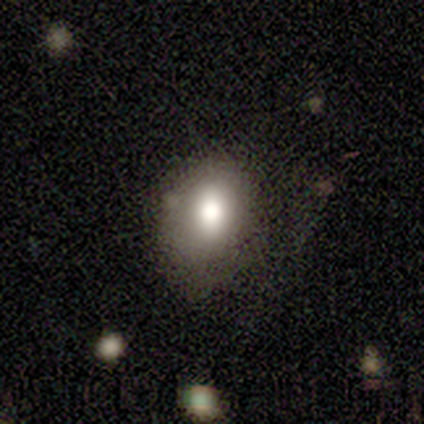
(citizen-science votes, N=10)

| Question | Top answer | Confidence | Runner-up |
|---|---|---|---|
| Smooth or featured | smooth | 80% | star or artifact (20%) |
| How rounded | in between | 50% | round (38%) |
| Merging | none | 50% | minor disturbance (25%) |